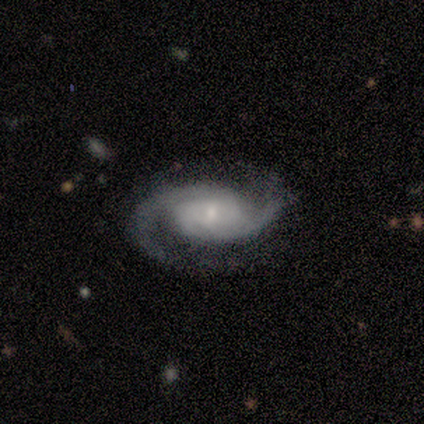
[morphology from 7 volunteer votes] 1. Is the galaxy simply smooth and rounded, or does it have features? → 100% featured or disk, 0% smooth, 0% star or artifact.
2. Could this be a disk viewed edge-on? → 86% no, 14% yes.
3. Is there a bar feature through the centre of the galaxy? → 67% no, 33% weak, 0% strong.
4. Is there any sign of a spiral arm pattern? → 100% yes, 0% no.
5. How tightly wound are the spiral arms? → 50% medium, 33% loose, 17% tight.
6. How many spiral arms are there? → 100% 2, 0% 1, 0% 3, 0% 4, 0% more than 4, 0% can't tell.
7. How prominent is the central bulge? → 100% small, 0% dominant, 0% large, 0% moderate, 0% none.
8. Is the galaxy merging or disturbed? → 71% none, 29% minor disturbance, 0% major disturbance, 0% merger.